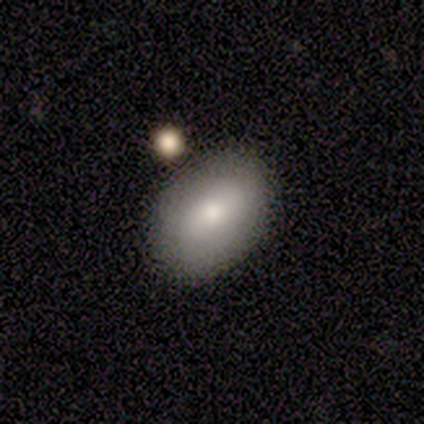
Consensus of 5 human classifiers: Volunteers were most divided on "how rounded" (2-way tie): round: 50%, in between: 50%, cigar-shaped: 0%. More confident: smooth or featured — smooth (80%); merging — none (80%).